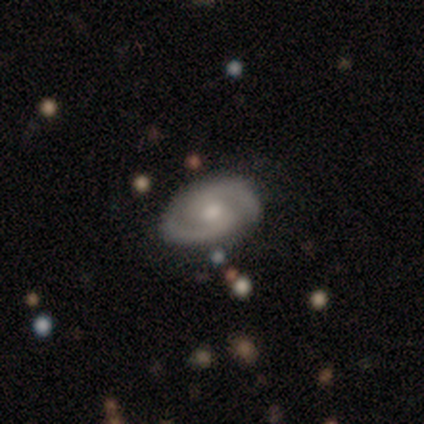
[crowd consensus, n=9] Volunteers were most divided on "bar" (2-way tie): weak: 50%, no: 50%, strong: 0%. More confident: edge-on disk — no (100%); merging — none (100%); smooth or featured — featured or disk (89%); spiral arms — yes (88%); spiral arm count — 2 (86%); bulge size — small (62%); spiral winding — medium (57%).